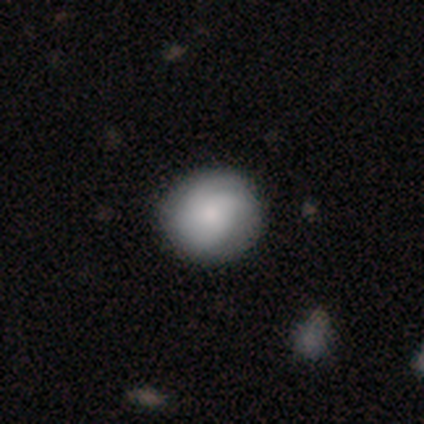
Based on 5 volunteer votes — Volunteers were most divided on "smooth or featured": smooth: 60%, featured or disk: 40%, star or artifact: 0%. More confident: how rounded — round (67%); merging — none (60%).